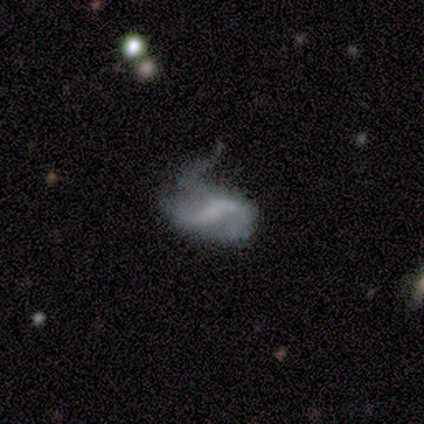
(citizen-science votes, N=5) Overall: featured or disk (100%). Edge-on disk: no (100%). Bar: strong (80%). Spiral arms: yes (80%). Spiral arm count: 2 (50%, tied with 3). Spiral winding: loose (100%). Bulge size: small (60%; none 40%). Merging: minor disturbance (60%; major disturbance 40%).